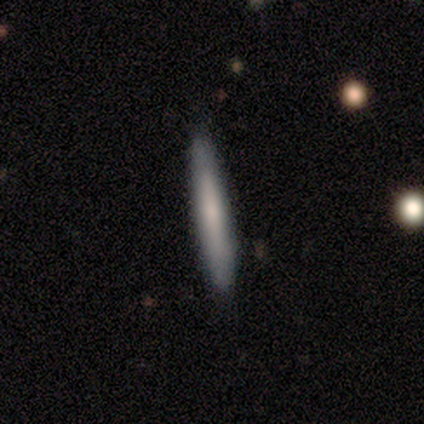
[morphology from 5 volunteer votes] Smooth or featured: smooth — 80% (featured or disk — 20%)
How rounded: cigar-shaped — 75% (in between — 25%)
Merging: none — 80% (minor disturbance — 20%)